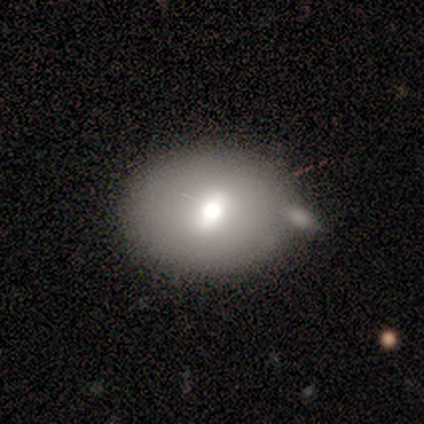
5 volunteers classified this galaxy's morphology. smooth 60%, featured or disk 40%, star or artifact 0%. Down the decision tree: how rounded — round (100%); merging — none (40%, tied with major disturbance).